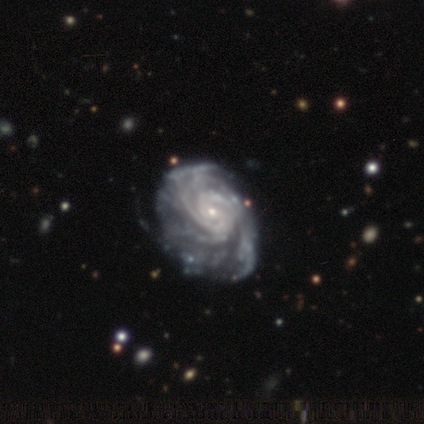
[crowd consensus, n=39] smooth_or_featured: featured or disk (p=0.97) [alt: star or artifact p=0.03]
disk_edge_on: no (p=0.95) [alt: yes p=0.05]
bar: no (p=0.58) [alt: weak p=0.31]
has_spiral_arms: yes (p=1.00)
spiral_winding: tight (p=0.69) [alt: medium p=0.22]
spiral_arm_count: 2 (p=0.28) [tied with: can't tell p=0.28]
bulge_size: small (p=0.81) [alt: moderate p=0.17]
merging: none (p=0.68) [alt: minor disturbance p=0.26]